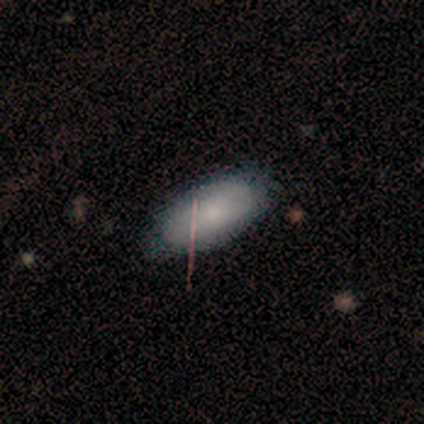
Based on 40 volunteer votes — Overall: smooth (78%). How rounded: in between (100%). Merging: none (46%; minor disturbance 18%).